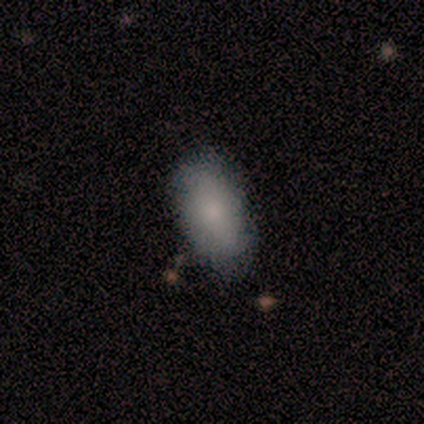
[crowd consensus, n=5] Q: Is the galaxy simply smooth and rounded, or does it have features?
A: smooth — 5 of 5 (100%).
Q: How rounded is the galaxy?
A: in between — 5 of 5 (100%).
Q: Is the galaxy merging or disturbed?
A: none — 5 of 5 (100%).